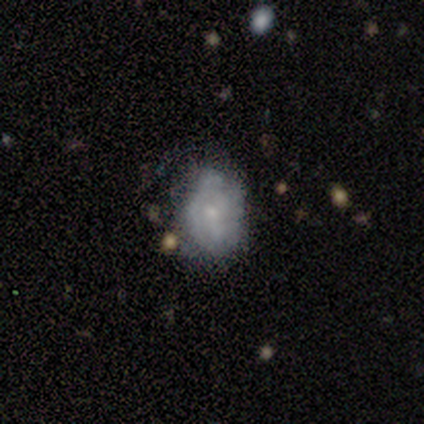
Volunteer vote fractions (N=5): This appears to be a smooth galaxy with no disk features (100%) that is in between round and cigar-shaped (80%). Merging: minor disturbance (80%).